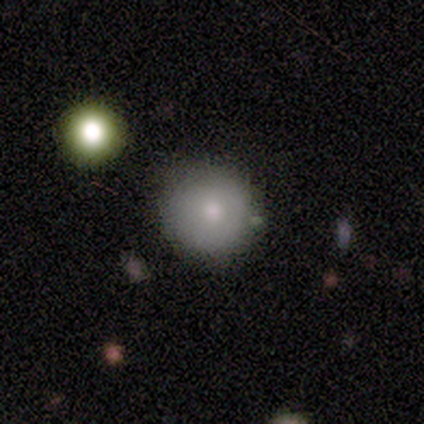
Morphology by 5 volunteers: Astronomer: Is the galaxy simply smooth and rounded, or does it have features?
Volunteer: smooth — 60%.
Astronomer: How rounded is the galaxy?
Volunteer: round — 67%.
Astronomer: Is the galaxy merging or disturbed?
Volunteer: none — 75%.